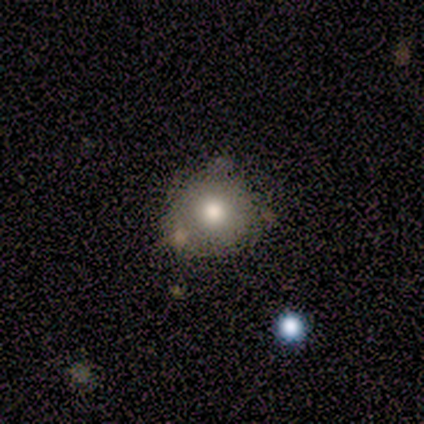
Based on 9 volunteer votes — This is likely a smooth galaxy (67%). How rounded: possibly round (50%, tied with in between). Merging: possibly none (50%).